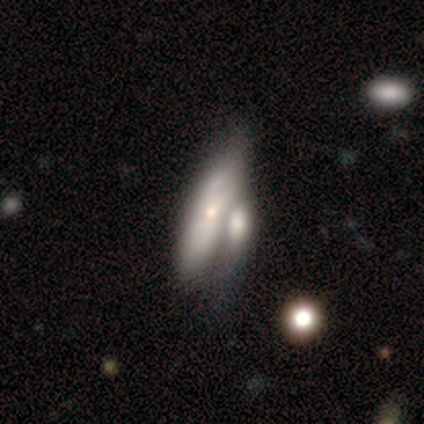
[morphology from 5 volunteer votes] Smooth or featured? 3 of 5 (60%) said featured or disk. Edge-on disk? 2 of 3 (67%) said no. Bar? 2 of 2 (100%) said no. Spiral arms? 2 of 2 (100%) said yes. Spiral winding? 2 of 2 (100%) said tight. Spiral arm count? 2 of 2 (100%) said can't tell. Bulge size? 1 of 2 (50%, tied with small) said moderate. Merging? 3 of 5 (60%) said merger.